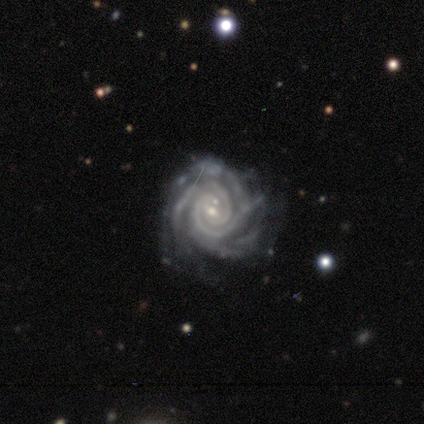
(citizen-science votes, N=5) A featured or disk galaxy (80%) with a weak bar (50%, tied with no), 3 (50%) tight (75%) spiral arms (100%) and a moderate central bulge (50%, tied with small).

Vote fractions:
- Smooth or featured? featured or disk: 80% / star or artifact: 20% / smooth: 0%
- Edge-on disk? no: 100% / yes: 0%
- Bar? weak: 50% (tied) / no: 50% (tied) / strong: 0%
- Spiral arms? yes: 100% / no: 0%
- Spiral winding? tight: 75% / medium: 25% / loose: 0%
- Spiral arm count? 3: 50% / 4: 25% / can't tell: 25% / 1: 0% / 2: 0% / more than 4: 0%
- Bulge size? moderate: 50% (tied) / small: 50% (tied) / dominant: 0% / large: 0% / none: 0%
- Merging? none: 50% (tied) / major disturbance: 50% (tied) / minor disturbance: 0% / merger: 0%